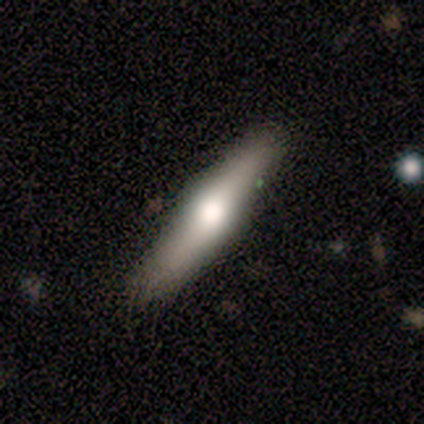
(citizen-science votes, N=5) Overall: featured or disk (60%; smooth 40%). Edge-on disk: yes (100%). Edge-on bulge: rounded (100%). Merging: none (100%).